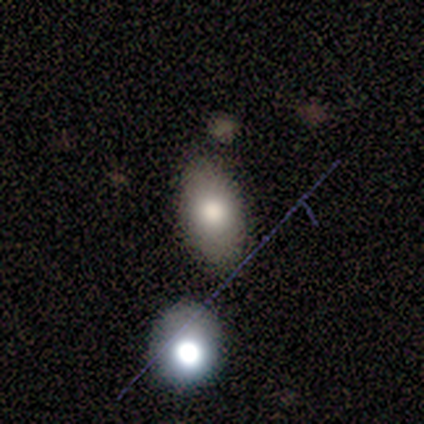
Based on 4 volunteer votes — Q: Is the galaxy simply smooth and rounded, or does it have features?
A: smooth — 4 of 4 (100%).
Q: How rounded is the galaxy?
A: in between — 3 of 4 (75%).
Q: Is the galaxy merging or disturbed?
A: none — 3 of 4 (75%).